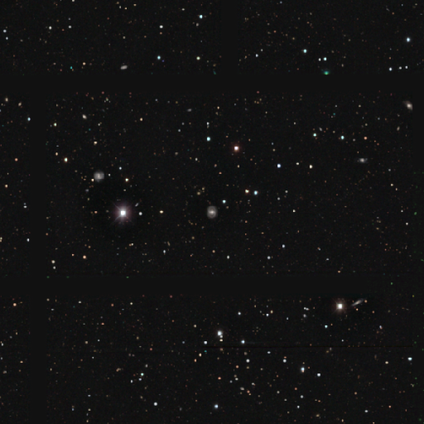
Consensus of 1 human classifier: Overall: star or artifact (100%).